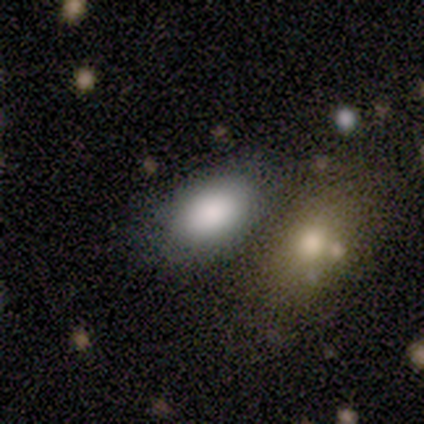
A smooth galaxy with no disk features (80%) that is in between round and cigar-shaped (100%).

Vote fractions:
- Smooth or featured? smooth: 80% / featured or disk: 20% / star or artifact: 0%
- How rounded? in between: 100% / round: 0% / cigar-shaped: 0%
- Merging? none: 60% / merger: 40% / minor disturbance: 0% / major disturbance: 0%